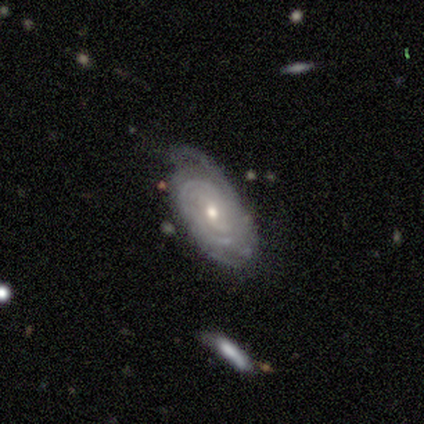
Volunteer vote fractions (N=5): A featured or disk galaxy (100%) with no bar (75%), 2 (25%, tied with 3, 4 and can't tell) tight (100%) spiral arms (100%) and a moderate central bulge (100%).

Vote fractions:
- Smooth or featured? featured or disk: 100% / smooth: 0% / star or artifact: 0%
- Edge-on disk? no: 80% / yes: 20%
- Bar? no: 75% / weak: 25% / strong: 0%
- Spiral arms? yes: 100% / no: 0%
- Spiral winding? tight: 100% / medium: 0% / loose: 0%
- Spiral arm count? 2: 25% (tied) / 3: 25% (tied) / 4: 25% (tied) / can't tell: 25% (tied) / 1: 0% / more than 4: 0%
- Bulge size? moderate: 100% / dominant: 0% / large: 0% / small: 0% / none: 0%
- Merging? none: 60% / minor disturbance: 20% / merger: 20% / major disturbance: 0%